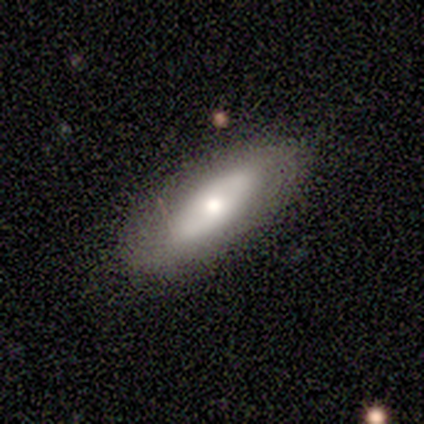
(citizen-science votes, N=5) A smooth galaxy with no disk features (60%) that is in between round and cigar-shaped (100%).

Vote fractions:
- Smooth or featured? smooth: 60% / featured or disk: 40% / star or artifact: 0%
- How rounded? in between: 100% / round: 0% / cigar-shaped: 0%
- Merging? minor disturbance: 60% / none: 40% / major disturbance: 0% / merger: 0%